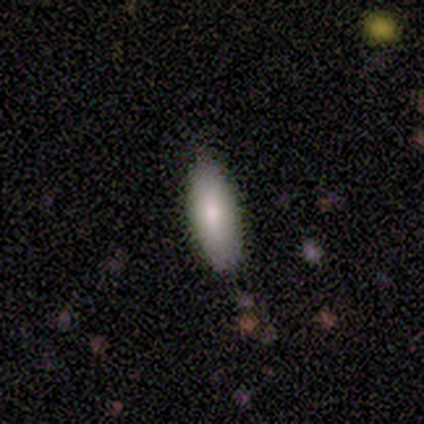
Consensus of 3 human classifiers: This appears to be a smooth galaxy with no disk features (67%) that is in between round and cigar-shaped (100%). Merging: none (100%).